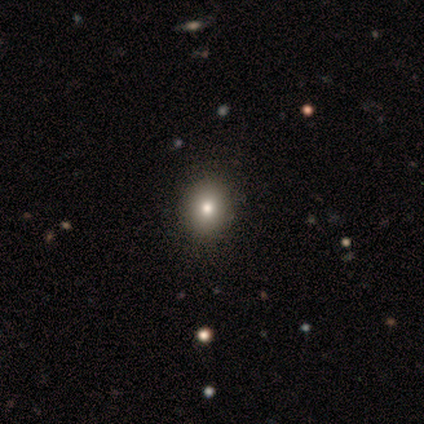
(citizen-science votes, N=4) Q: Smooth or featured?
A: smooth (100%)
Q: How rounded?
A: round (75%); runner-up: in between (25%)
Q: Merging?
A: none (100%)